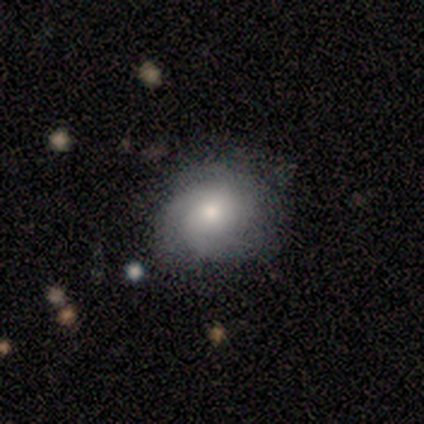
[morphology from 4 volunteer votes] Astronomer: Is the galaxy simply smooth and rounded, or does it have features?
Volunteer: featured or disk — 75%.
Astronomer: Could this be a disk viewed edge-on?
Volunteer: no — 100%.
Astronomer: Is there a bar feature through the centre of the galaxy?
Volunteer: no — 67%.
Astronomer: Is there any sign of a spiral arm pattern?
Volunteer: yes — 100%.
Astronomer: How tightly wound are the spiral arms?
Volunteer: medium — 67%.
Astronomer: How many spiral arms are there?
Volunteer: can't tell — 67%.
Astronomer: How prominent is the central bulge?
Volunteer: small — 67%.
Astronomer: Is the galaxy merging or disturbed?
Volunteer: none — 100%.